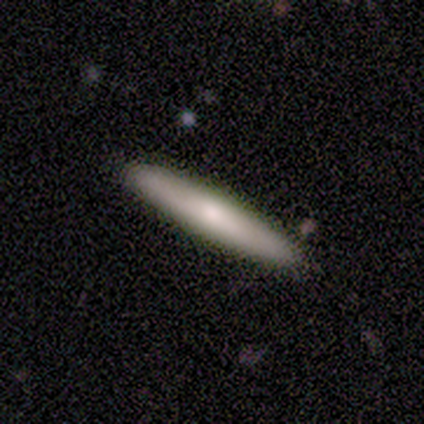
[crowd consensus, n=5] Smooth or featured? 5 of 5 (100%) said smooth. How rounded? 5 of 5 (100%) said cigar-shaped. Merging? 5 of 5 (100%) said none.